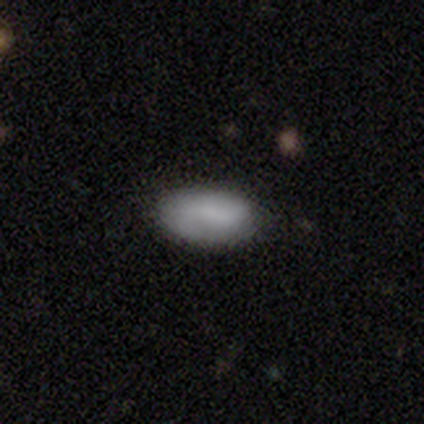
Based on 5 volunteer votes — smooth 80%, star or artifact 20%, featured or disk 0%. Down the decision tree: how rounded — in between (100%); merging — none (100%).